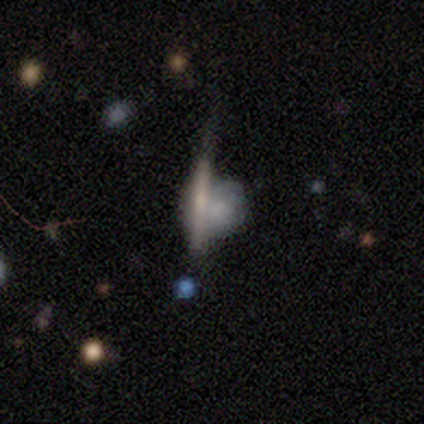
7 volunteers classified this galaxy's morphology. This appears to be a smooth galaxy with no disk features (57%) that is round (75%). Merging: major disturbance (43%).